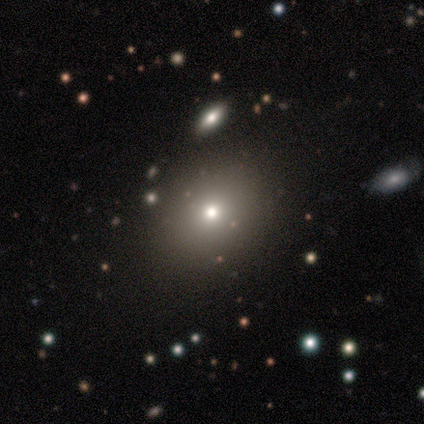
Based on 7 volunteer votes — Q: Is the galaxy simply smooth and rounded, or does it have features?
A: smooth — 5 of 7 (71%).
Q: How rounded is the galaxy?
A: round — 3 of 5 (60%).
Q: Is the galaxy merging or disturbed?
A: none — 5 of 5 (100%).